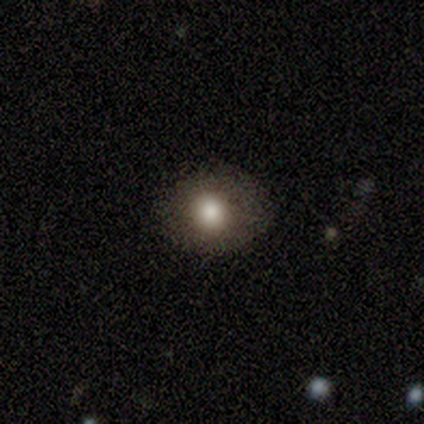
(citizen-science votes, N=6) Smooth or featured?
  - smooth: 83% *
  - star or artifact: 17%
  - featured or disk: 0%
How rounded?
  - round: 80% *
  - in between: 20%
  - cigar-shaped: 0%
Merging?
  - none: 80% *
  - minor disturbance: 20%
  - major disturbance: 0%
  - merger: 0%